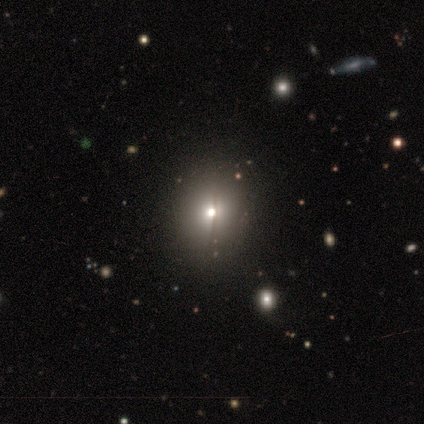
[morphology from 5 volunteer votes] smooth 40% (tied), featured or disk 40% (tied), star or artifact 20%. Down the decision tree: how rounded — round (100%); merging — none (50%, tied with minor disturbance).